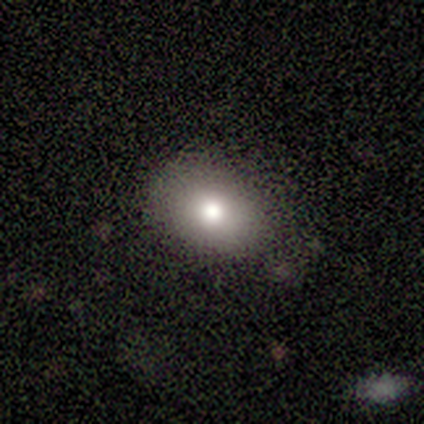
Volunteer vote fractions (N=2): smooth_or_featured: smooth (p=1.00)
how_rounded: in between (p=1.00)
merging: none (p=0.50) [tied with: minor disturbance p=0.50]